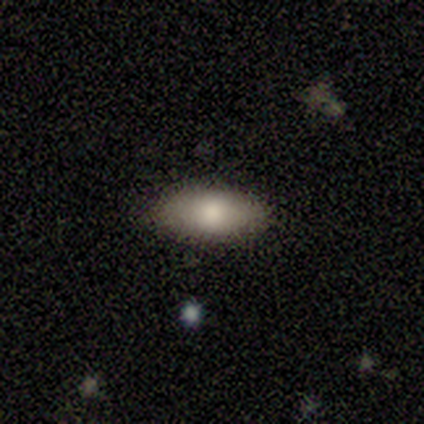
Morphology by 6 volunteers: Smooth or featured? 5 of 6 (83%) said smooth. How rounded? 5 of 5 (100%) said in between. Merging? 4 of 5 (80%) said none.